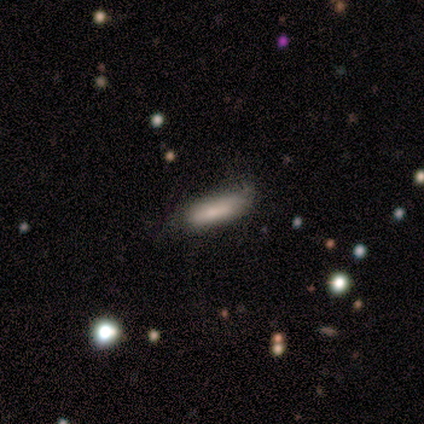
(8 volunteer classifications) smooth 88%, featured or disk 12%, star or artifact 0%. Down the decision tree: how rounded — cigar-shaped (71%); merging — none (75%).